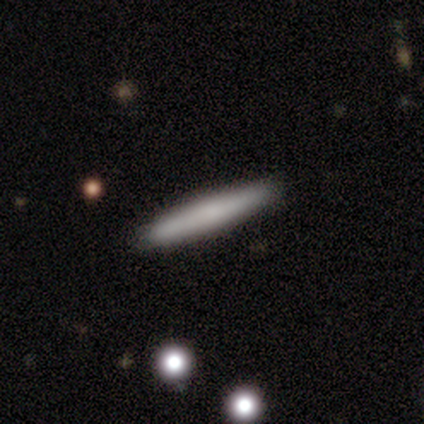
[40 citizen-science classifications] Morphology: type=smooth (70%); roundness=cigar-shaped (96%); merging=none (86%).